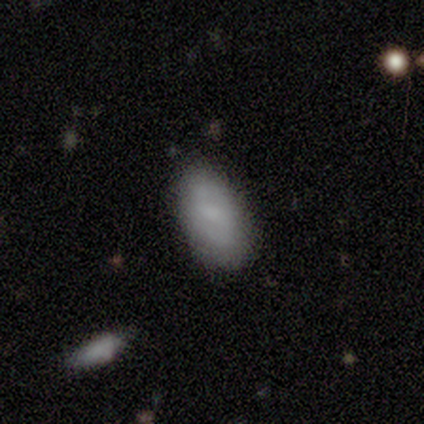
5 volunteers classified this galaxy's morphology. A smooth galaxy with no disk features (60%) that is in between round and cigar-shaped (67%).

Vote fractions:
- Smooth or featured? smooth: 60% / featured or disk: 20% / star or artifact: 20%
- How rounded? in between: 67% / round: 33% / cigar-shaped: 0%
- Merging? none: 100% / minor disturbance: 0% / major disturbance: 0% / merger: 0%